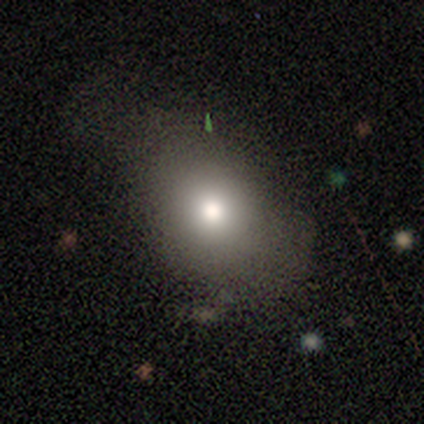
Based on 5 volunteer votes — Smooth or featured? 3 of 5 (60%) said smooth. How rounded? 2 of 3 (67%) said in between. Merging? 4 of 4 (100%) said none.